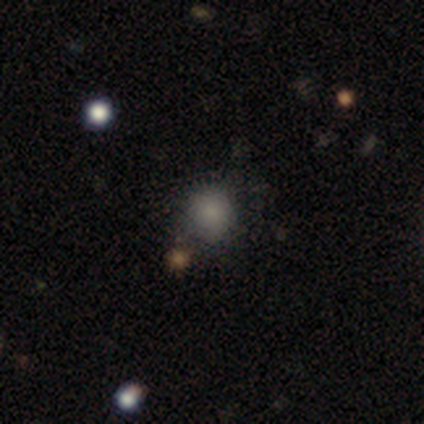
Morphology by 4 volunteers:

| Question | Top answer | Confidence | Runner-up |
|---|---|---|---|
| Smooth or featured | smooth | 100% | — |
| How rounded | round | 100% | — |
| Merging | none | 100% | — |